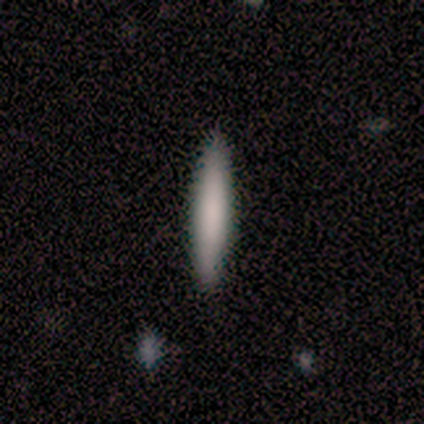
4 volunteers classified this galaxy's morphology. A smooth galaxy with no disk features (100%) that is cigar-shaped (100%).

Vote fractions:
- Smooth or featured? smooth: 100% / featured or disk: 0% / star or artifact: 0%
- How rounded? cigar-shaped: 100% / round: 0% / in between: 0%
- Merging? none: 100% / minor disturbance: 0% / major disturbance: 0% / merger: 0%